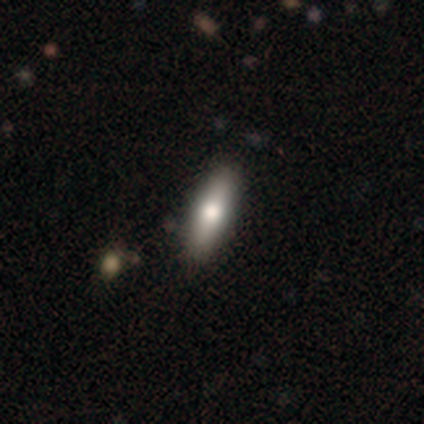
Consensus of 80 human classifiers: Smooth or featured: smooth — 76% (featured or disk — 20%)
How rounded: cigar-shaped — 62% (in between — 38%)
Merging: none — 45% (minor disturbance — 3%)